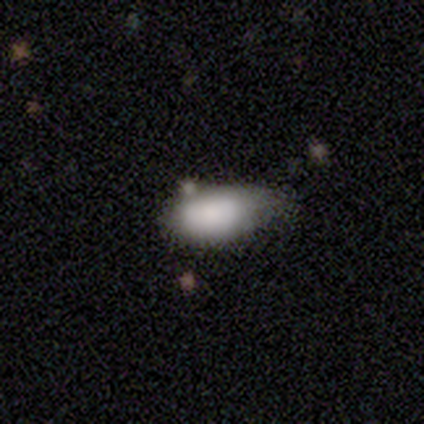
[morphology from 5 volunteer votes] Smooth or featured? smooth (60%)
How rounded? in between (100%)
Merging? minor disturbance (60%)